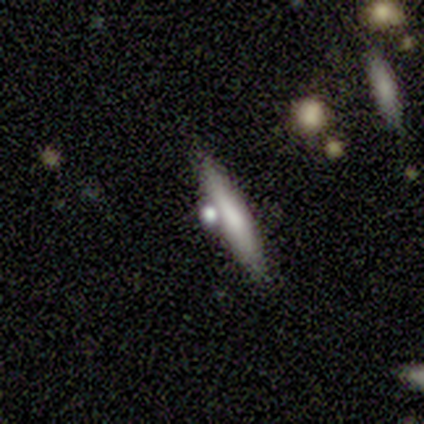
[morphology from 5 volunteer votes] smooth-or-featured: smooth: 80% | featured or disk: 20% | star or artifact: 0%
  how-rounded: cigar-shaped: 100% | round: 0% | in between: 0%
  merging: none: 80% | merger: 20% | minor disturbance: 0% | major disturbance: 0%